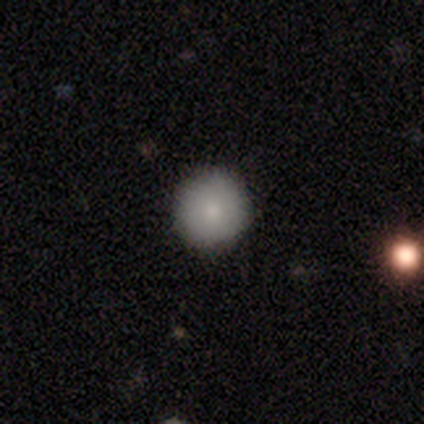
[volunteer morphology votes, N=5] Smooth or featured? smooth (80%)
How rounded? round (100%)
Merging? none (100%)